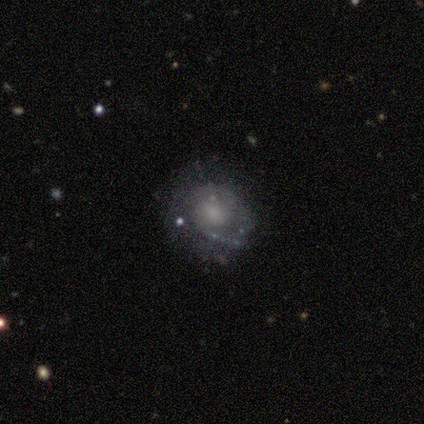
Smooth or featured?
  - smooth: 50% *
  - featured or disk: 25%
  - star or artifact: 25%
How rounded?
  - round: 100% *
  - in between: 0%
  - cigar-shaped: 0%
Merging?
  - none: 67% *
  - minor disturbance: 33%
  - major disturbance: 0%
  - merger: 0%